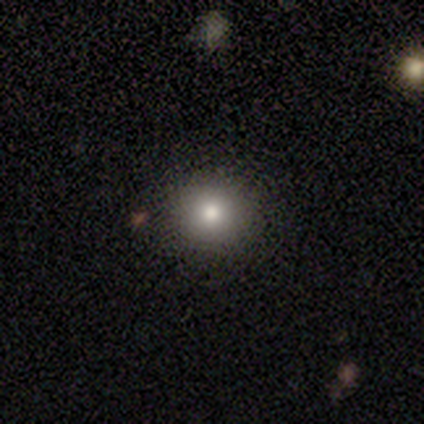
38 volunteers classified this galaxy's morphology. smooth-or-featured: smooth: 74% | featured or disk: 16% | star or artifact: 11%
  how-rounded: round: 89% | in between: 7% | cigar-shaped: 4%
  merging: none: 85% | minor disturbance: 9% | merger: 6% | major disturbance: 0%